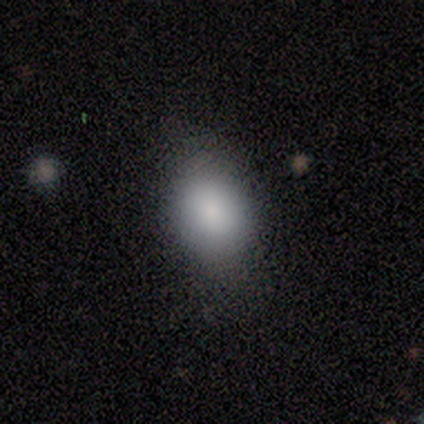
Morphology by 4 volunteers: This is clearly a smooth galaxy (100%). How rounded: clearly in between (100%). Merging: likely none (75%).